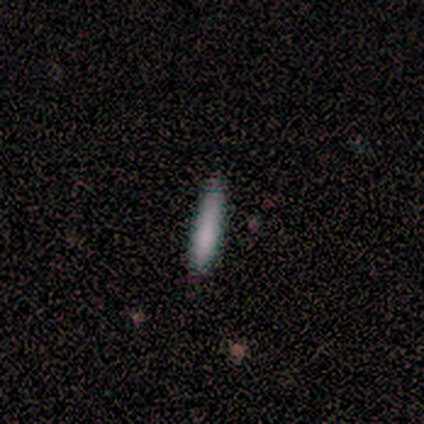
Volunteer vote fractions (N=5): A smooth galaxy with no disk features (100%) that is cigar-shaped (100%). Merging: none (100%).